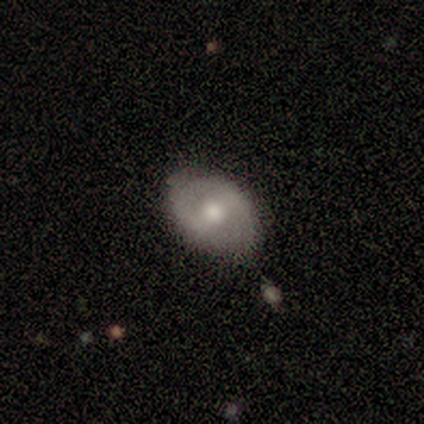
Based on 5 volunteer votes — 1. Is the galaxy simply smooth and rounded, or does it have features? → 60% smooth, 40% featured or disk, 0% star or artifact.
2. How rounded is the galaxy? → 67% in between, 33% round, 0% cigar-shaped.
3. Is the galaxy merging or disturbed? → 100% none, 0% minor disturbance, 0% major disturbance, 0% merger.